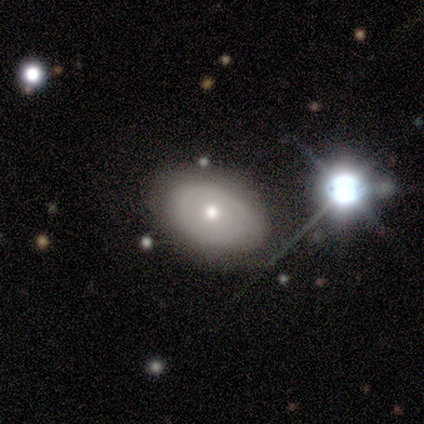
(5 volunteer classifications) A featured or disk galaxy (80%) with no bar (75%), no spiral arms (100%) and a moderate central bulge (50%). Merging: none (100%).